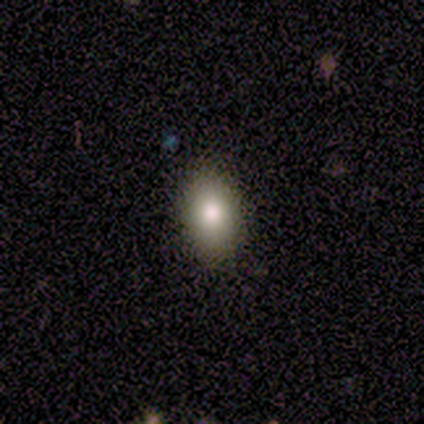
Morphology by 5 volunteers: This appears to be a smooth galaxy with no disk features (100%) that is in between round and cigar-shaped (60%). Merging: none (100%).